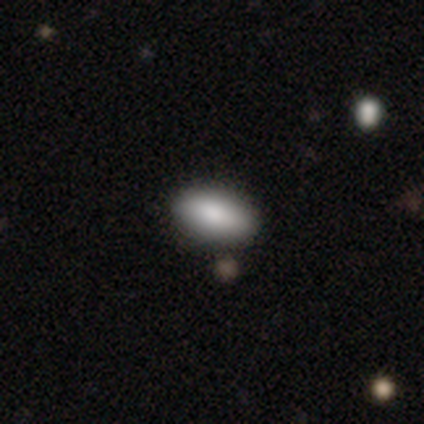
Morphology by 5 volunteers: This appears to be a smooth galaxy with no disk features (80%) that is in between round and cigar-shaped (75%). Merging: none (40%, tied with minor disturbance).